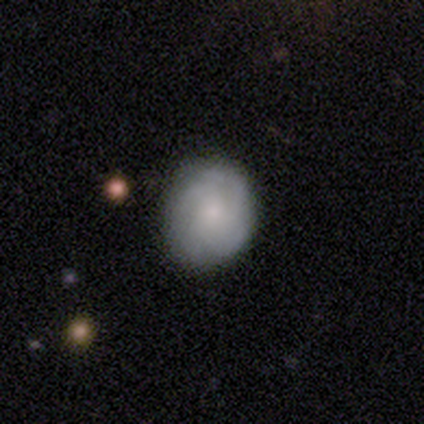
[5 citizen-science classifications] This appears to be a smooth galaxy with no disk features (80%) that is round (75%). Merging: minor disturbance (60%).